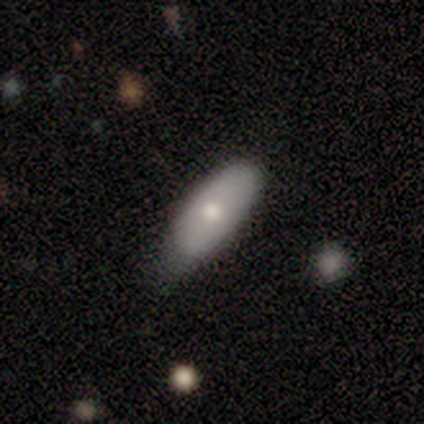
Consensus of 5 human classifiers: Overall: smooth (100%). How rounded: in between (80%). Merging: none (60%; minor disturbance 40%).